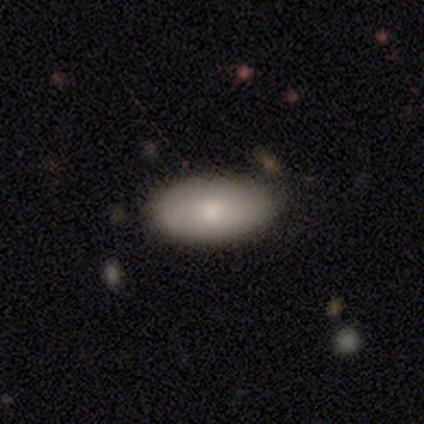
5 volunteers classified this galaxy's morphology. Q: Smooth or featured?
A: smooth (100%)
Q: How rounded?
A: in between (100%)
Q: Merging?
A: none (100%)